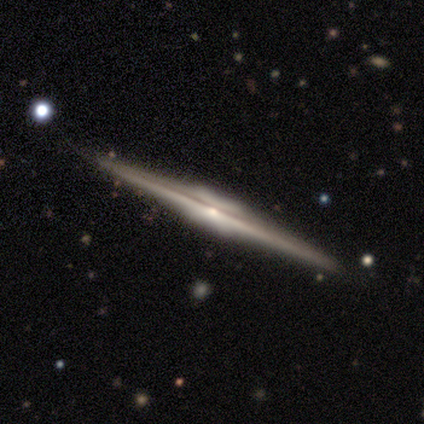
smooth_or_featured: featured or disk (p=0.89) [alt: smooth p=0.06]
disk_edge_on: yes (p=1.00)
edge_on_bulge: boxy (p=0.50) [alt: rounded p=0.44]
merging: none (p=1.00)